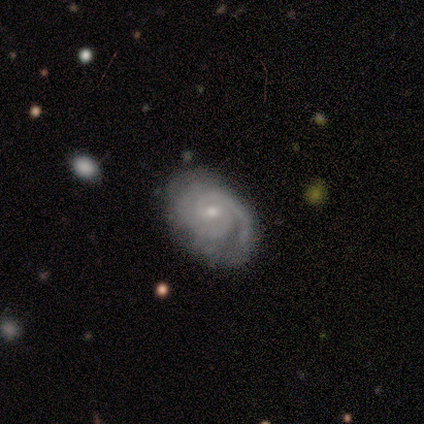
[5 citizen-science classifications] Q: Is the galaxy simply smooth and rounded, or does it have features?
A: featured or disk — 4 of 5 (80%).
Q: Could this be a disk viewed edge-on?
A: no — 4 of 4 (100%).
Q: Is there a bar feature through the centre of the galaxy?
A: strong — 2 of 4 (50%, tied with no).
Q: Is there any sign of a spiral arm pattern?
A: yes — 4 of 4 (100%).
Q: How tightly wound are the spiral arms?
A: tight — 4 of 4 (100%).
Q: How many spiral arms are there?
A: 2 — 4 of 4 (100%).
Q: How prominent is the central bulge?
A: small — 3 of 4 (75%).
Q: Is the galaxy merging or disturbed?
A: none — 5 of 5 (100%).